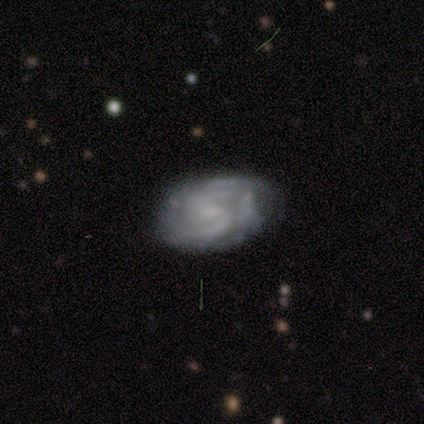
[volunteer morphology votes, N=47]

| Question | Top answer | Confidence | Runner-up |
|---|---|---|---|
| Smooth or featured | featured or disk | 96% | smooth (4%) |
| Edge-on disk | no | 100% | — |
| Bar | weak | 56% | no (38%) |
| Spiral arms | yes | 98% | no (2%) |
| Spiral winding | medium | 57% | tight (36%) |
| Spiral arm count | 2 | 68% | can't tell (20%) |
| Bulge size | small | 60% | moderate (20%) |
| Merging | none | 57% | minor disturbance (34%) |